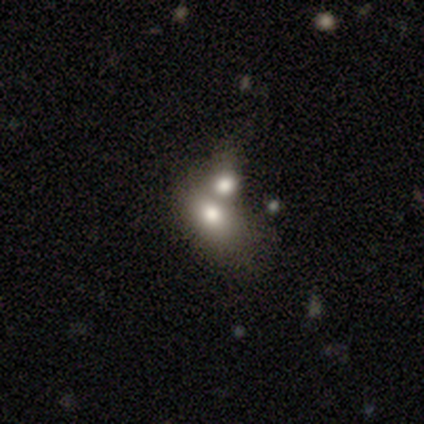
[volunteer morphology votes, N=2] smooth_or_featured: smooth (p=1.00)
how_rounded: in between (p=1.00)
merging: none (p=0.50) [tied with: merger p=0.50]